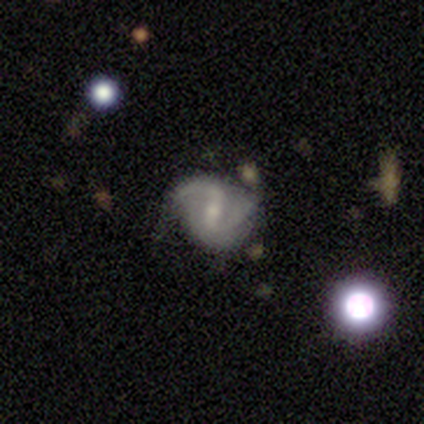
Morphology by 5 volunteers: This is clearly a featured or disk galaxy (80%). It is clearly not viewed edge-on (100%). Bar: likely weak (75%). Spiral arm pattern: clearly yes (100%). Spiral arm count: likely 2 (75%). Spiral winding: possibly tight (50%). Central bulge: likely small (75%). Merging: likely none (60%).